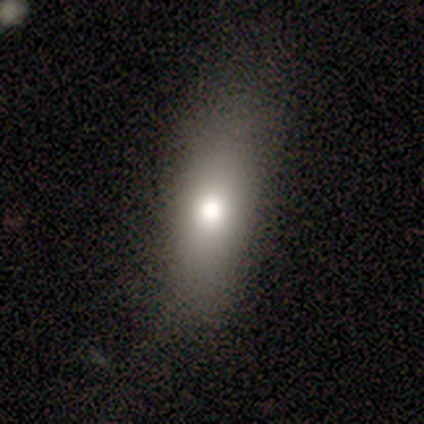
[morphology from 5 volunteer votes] Smooth or featured?
  - smooth: 60% *
  - featured or disk: 20%
  - star or artifact: 20%
How rounded?
  - in between: 67% *
  - cigar-shaped: 33%
  - round: 0%
Merging?
  - none: 75% *
  - minor disturbance: 25%
  - major disturbance: 0%
  - merger: 0%